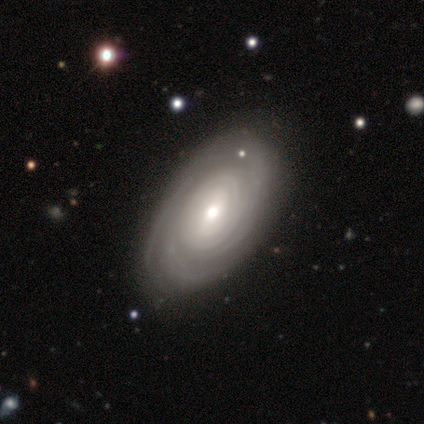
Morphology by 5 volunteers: A featured or disk galaxy (60%) with no bar (67%), 3 (33%, tied with 4 and more than 4) tight (100%) spiral arms (100%) and a small central bulge (67%).

Vote fractions:
- Smooth or featured? featured or disk: 60% / smooth: 40% / star or artifact: 0%
- Edge-on disk? no: 100% / yes: 0%
- Bar? no: 67% / strong: 33% / weak: 0%
- Spiral arms? yes: 100% / no: 0%
- Spiral winding? tight: 100% / medium: 0% / loose: 0%
- Spiral arm count? 3: 33% (tied) / 4: 33% (tied) / more than 4: 33% (tied) / 1: 0% / 2: 0% / can't tell: 0%
- Bulge size? small: 67% / moderate: 33% / dominant: 0% / large: 0% / none: 0%
- Merging? none: 100% / minor disturbance: 0% / major disturbance: 0% / merger: 0%